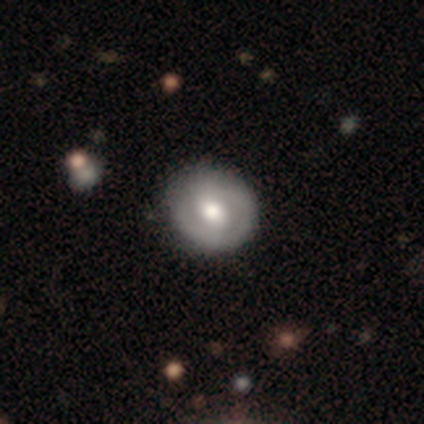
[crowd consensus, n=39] Smooth or featured? 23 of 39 (59%) said featured or disk. Edge-on disk? 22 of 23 (96%) said no. Bar? 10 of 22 (45%) said no. Spiral arms? 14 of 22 (64%) said yes. Spiral winding? 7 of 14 (50%) said tight. Spiral arm count? 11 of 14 (79%) said 2. Bulge size? 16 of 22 (73%) said moderate. Merging? 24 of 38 (63%) said none.